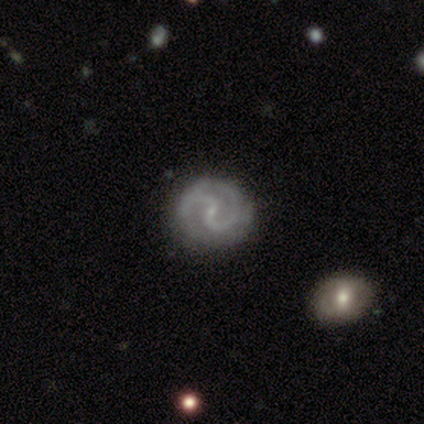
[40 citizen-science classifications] featured or disk 100%, smooth 0%, star or artifact 0%. Down the decision tree: edge-on disk — no (100%); bar — weak (57%); spiral arms — yes (98%); spiral arm count — 2 (95%); spiral winding — medium (44%); bulge size — small (78%); merging — none (60%).